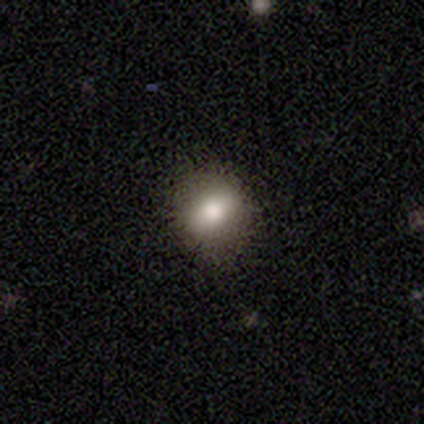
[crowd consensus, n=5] Overall: smooth (80%). How rounded: round (75%). Merging: none (80%).